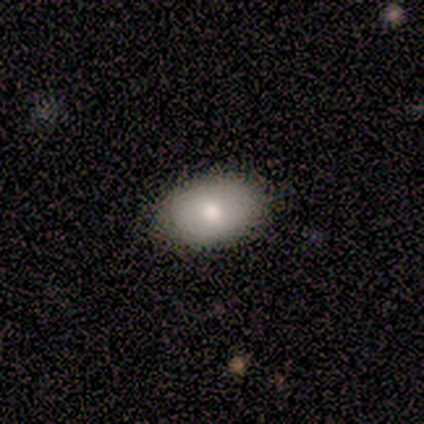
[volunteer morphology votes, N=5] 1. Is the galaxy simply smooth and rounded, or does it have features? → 80% smooth, 20% featured or disk, 0% star or artifact.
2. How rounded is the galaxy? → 100% in between, 0% round, 0% cigar-shaped.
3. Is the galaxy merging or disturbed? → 100% none, 0% minor disturbance, 0% major disturbance, 0% merger.